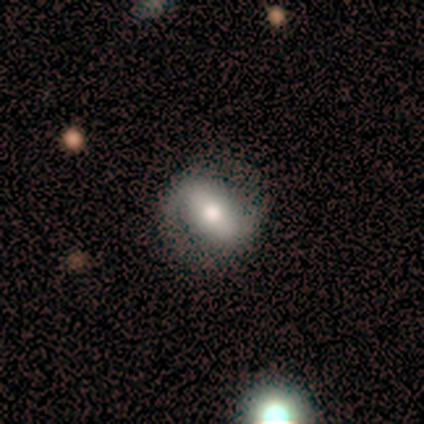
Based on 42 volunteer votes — smooth-or-featured: featured or disk: 64% | smooth: 29% | star or artifact: 7%
  disk-edge-on: no: 96% | yes: 4%
    bar: strong: 46% | weak: 31% | no: 23%
    has-spiral-arms: yes: 81% | no: 19%
      spiral-winding: loose: 48% | medium: 29% | tight: 24%
      spiral-arm-count: 2: 90% | 1: 5% | can't tell: 5% | 3: 0% | 4: 0% | more than 4: 0%
    bulge-size: moderate: 58% | large: 23% | dominant: 8% | none: 8% | small: 4%
  merging: none: 82% | minor disturbance: 15% | major disturbance: 3% | merger: 0%